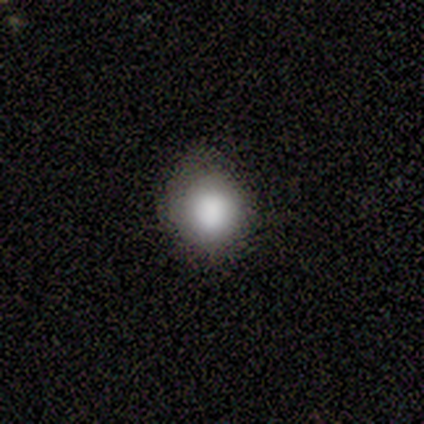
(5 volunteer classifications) Smooth or featured?
  - smooth: 80% *
  - star or artifact: 20%
  - featured or disk: 0%
How rounded?
  - round: 100% *
  - in between: 0%
  - cigar-shaped: 0%
Merging?
  - none: 75% *
  - minor disturbance: 25%
  - major disturbance: 0%
  - merger: 0%